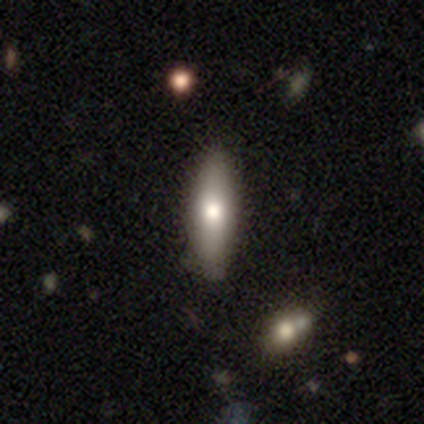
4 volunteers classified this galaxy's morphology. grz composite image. It shows a smooth galaxy with no disk features (75%) that is cigar-shaped (67%). Merging: none (100%).